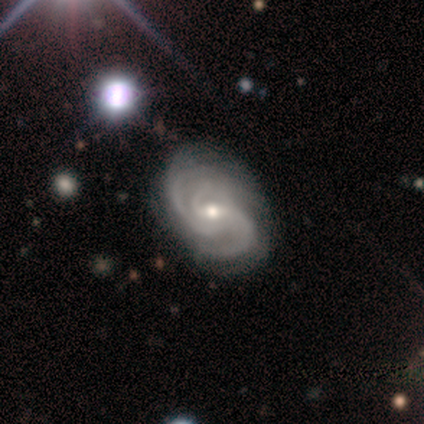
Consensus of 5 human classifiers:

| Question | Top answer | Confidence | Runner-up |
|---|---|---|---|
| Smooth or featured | featured or disk | 100% | — |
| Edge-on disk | no | 100% | — |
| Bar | strong | 40% | tied: no (40%) |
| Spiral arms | yes | 100% | — |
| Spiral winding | medium | 80% | loose (20%) |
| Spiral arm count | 3 | 60% | 2 (20%) |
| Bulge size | small | 80% | moderate (20%) |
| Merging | none | 80% | minor disturbance (20%) |